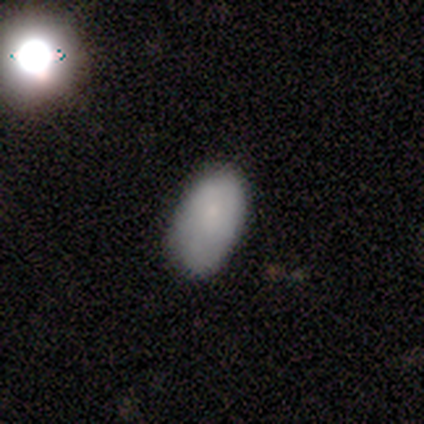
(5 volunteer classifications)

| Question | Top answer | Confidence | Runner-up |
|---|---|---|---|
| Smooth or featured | smooth | 80% | star or artifact (20%) |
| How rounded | in between | 100% | — |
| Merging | none | 75% | minor disturbance (25%) |